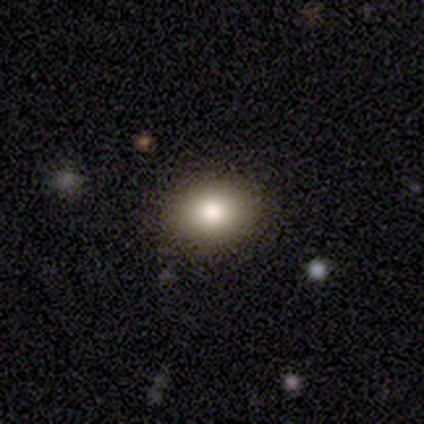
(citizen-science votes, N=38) A smooth galaxy with no disk features (68%) that is in between round and cigar-shaped (54%). Merging: none (84%).